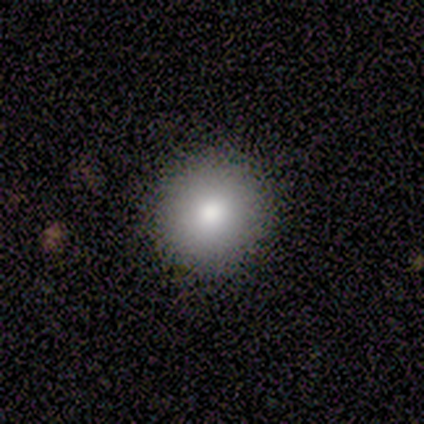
Smooth or featured? smooth (100%)
How rounded? round (100%)
Merging? none (100%)